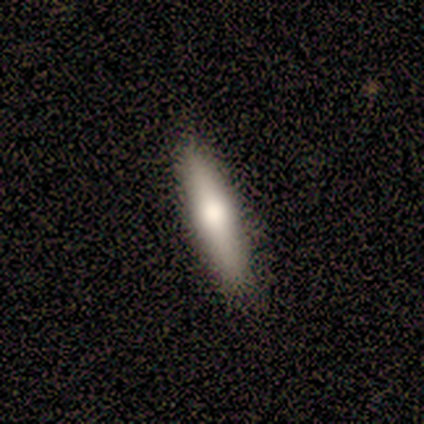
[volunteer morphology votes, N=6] Volunteers were most divided on "smooth or featured": smooth: 50%, featured or disk: 33%, star or artifact: 17%. More confident: how rounded — cigar-shaped (100%); merging — none (100%).